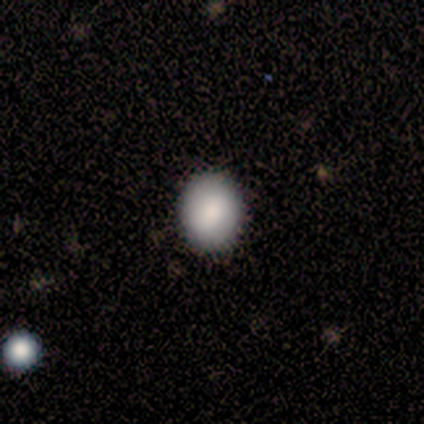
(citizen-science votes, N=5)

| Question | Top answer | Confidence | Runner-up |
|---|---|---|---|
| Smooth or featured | smooth | 60% | featured or disk (20%) |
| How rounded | in between | 67% | round (33%) |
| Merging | none | 100% | — |